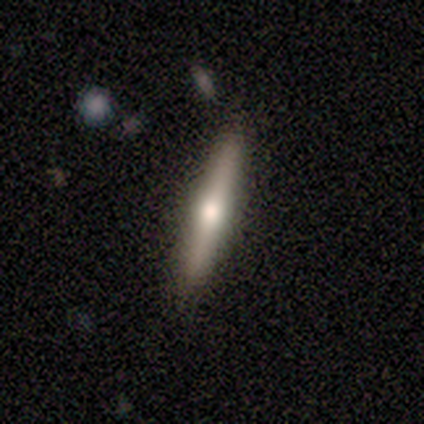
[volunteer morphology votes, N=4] Smooth or featured? featured or disk (75%)
Edge-on disk? yes (100%)
Edge-on bulge? rounded (67%)
Merging? none (75%)